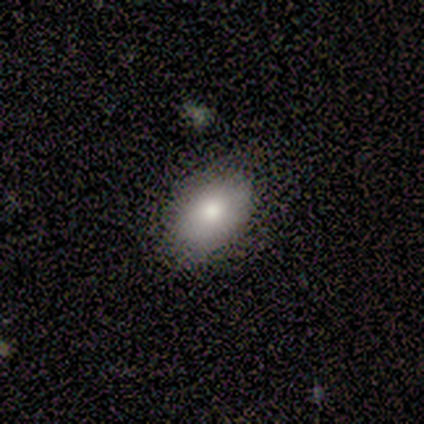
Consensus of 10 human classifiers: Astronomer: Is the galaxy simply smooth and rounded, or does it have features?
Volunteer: smooth — 80%.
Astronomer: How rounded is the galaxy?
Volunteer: in between — 75%.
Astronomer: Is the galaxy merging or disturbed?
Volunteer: none — 90%.